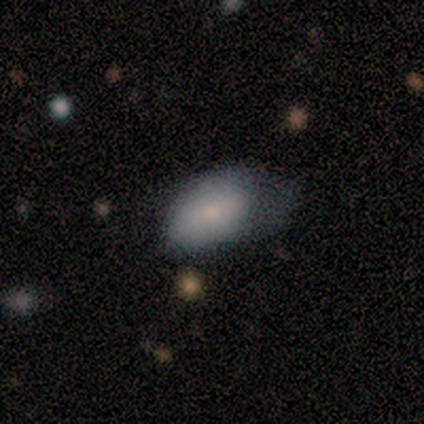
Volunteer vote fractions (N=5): Smooth or featured?
  - smooth: 100% *
  - featured or disk: 0%
  - star or artifact: 0%
How rounded?
  - in between: 80% *
  - round: 20%
  - cigar-shaped: 0%
Merging?
  - major disturbance: 60% *
  - none: 20%
  - minor disturbance: 20%
  - merger: 0%